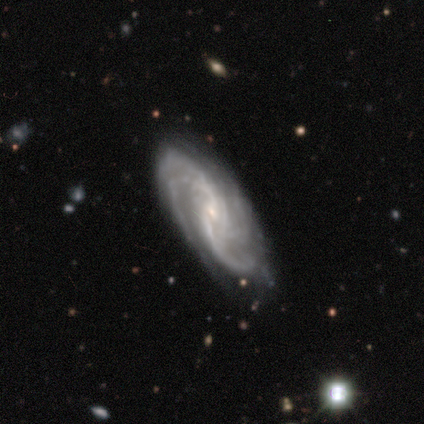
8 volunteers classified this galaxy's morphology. smooth-or-featured: featured or disk: 88% | star or artifact: 12% | smooth: 0%
  disk-edge-on: no: 100% | yes: 0%
    bar: no: 43% | strong: 29% | weak: 29%
    has-spiral-arms: yes: 100% | no: 0%
      spiral-winding: medium: 57% | loose: 29% | tight: 14%
      spiral-arm-count: 2: 57% | 3: 43% | 1: 0% | 4: 0% | more than 4: 0% | can't tell: 0%
    bulge-size: small: 86% | moderate: 14% | dominant: 0% | large: 0% | none: 0%
  merging: minor disturbance: 57% | none: 43% | major disturbance: 0% | merger: 0%